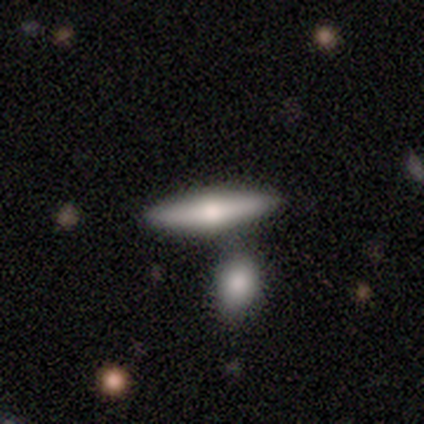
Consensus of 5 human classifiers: Smooth or featured: featured or disk — 80% (smooth — 20%)
Edge-on disk: yes — 100%
Edge-on bulge: rounded — 75% (none — 25%)
Merging: none — 60% (merger — 40%)